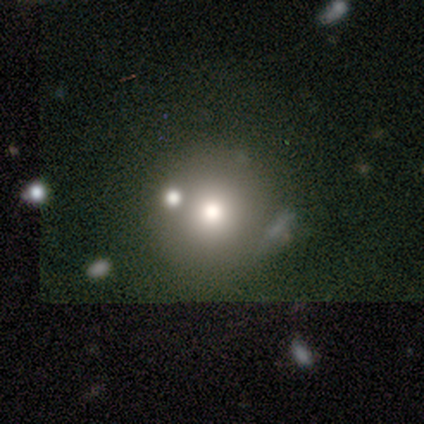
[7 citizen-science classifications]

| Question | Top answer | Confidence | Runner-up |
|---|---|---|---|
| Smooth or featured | smooth | 71% | star or artifact (29%) |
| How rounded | round | 100% | — |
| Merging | none | 40% | tied: merger (40%) |